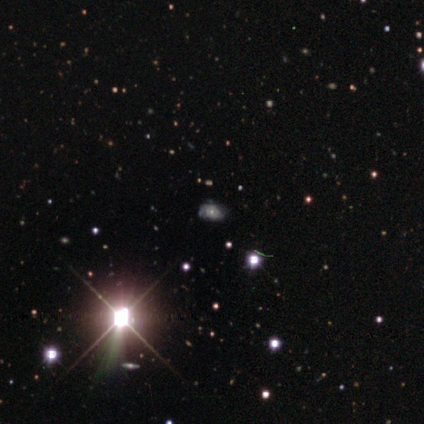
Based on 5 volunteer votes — A smooth galaxy with no disk features (40%, tied with star or artifact) that is round (50%, tied with in between). Merging: none (67%).